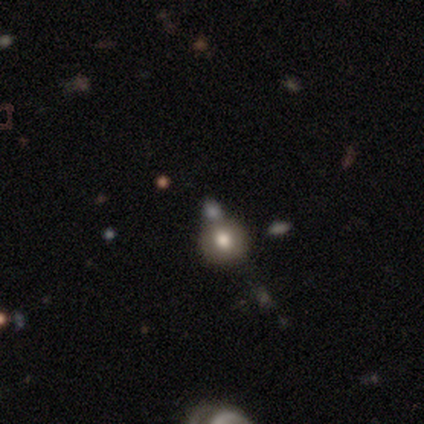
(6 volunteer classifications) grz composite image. It shows a smooth galaxy with no disk features (67%) that is round (100%). Merging: none (75%).